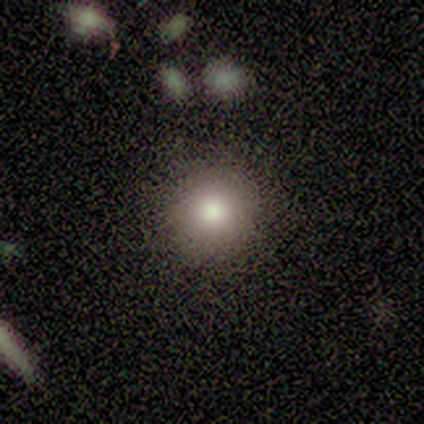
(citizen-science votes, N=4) Smooth or featured? smooth (100%)
How rounded? round (75%)
Merging? none (75%)